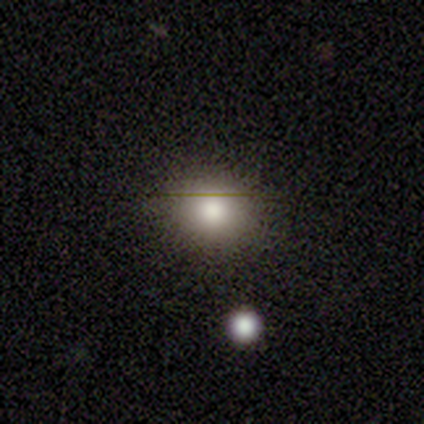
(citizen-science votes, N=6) This appears to be a smooth galaxy with no disk features (100%) that is round (50%, tied with in between). Merging: none (67%).